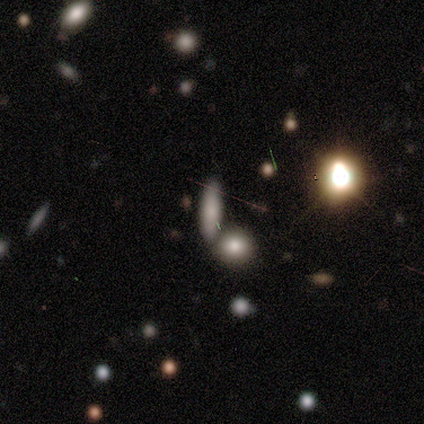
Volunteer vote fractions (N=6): Smooth or featured? 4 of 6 (67%) said smooth. How rounded? 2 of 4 (50%, tied with cigar-shaped) said in between. Merging? 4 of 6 (67%) said none.